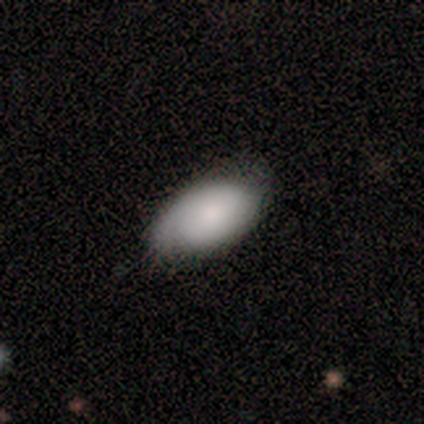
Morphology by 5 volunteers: Smooth or featured?
  - featured or disk: 60% *
  - smooth: 40%
  - star or artifact: 0%
Edge-on disk?
  - no: 100% *
  - yes: 0%
Bar?
  - no: 67% *
  - strong: 33%
  - weak: 0%
Spiral arms?
  - no: 67% *
  - yes: 33%
Bulge size?
  - dominant: 33% * (tied)
  - large: 33% * (tied)
  - small: 33% * (tied)
  - moderate: 0%
  - none: 0%
Merging?
  - none: 80% *
  - minor disturbance: 20%
  - major disturbance: 0%
  - merger: 0%